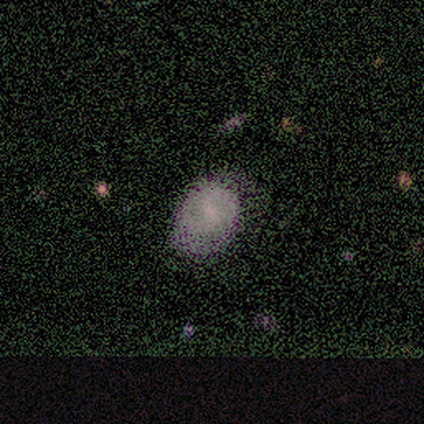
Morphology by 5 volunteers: Volunteers were most divided on "smooth or featured": smooth: 60%, featured or disk: 20%, star or artifact: 20%. More confident: how rounded — in between (100%); merging — none (75%).